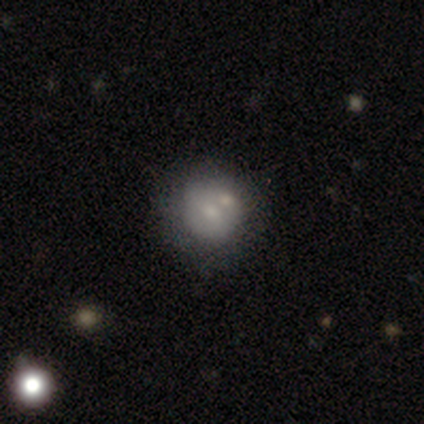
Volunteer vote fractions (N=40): A smooth galaxy with no disk features (50%) that is round (90%).

Vote fractions:
- Smooth or featured? smooth: 50% / featured or disk: 38% / star or artifact: 12%
- How rounded? round: 90% / in between: 10% / cigar-shaped: 0%
- Merging? none: 40% / merger: 34% / minor disturbance: 6% / major disturbance: 6%